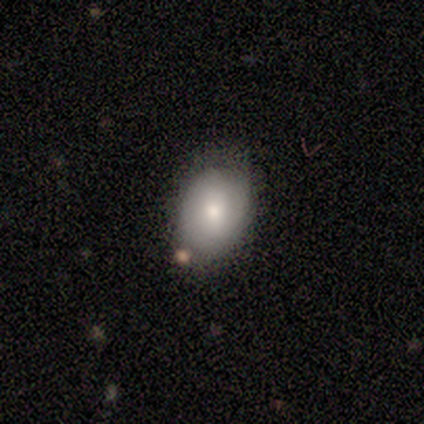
Smooth or featured? 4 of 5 (80%) said smooth. How rounded? 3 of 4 (75%) said in between. Merging? 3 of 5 (60%) said minor disturbance.